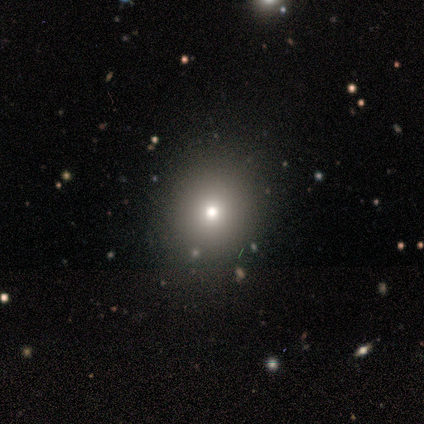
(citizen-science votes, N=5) Smooth or featured? smooth (100%)
How rounded? round (80%)
Merging? none (80%)